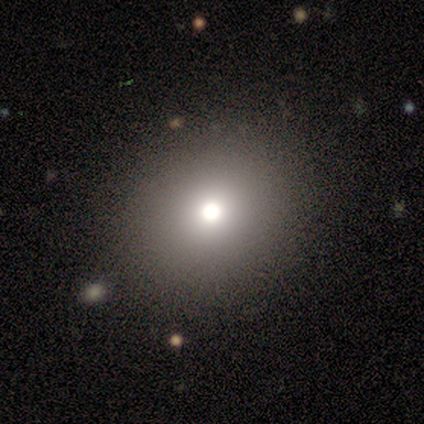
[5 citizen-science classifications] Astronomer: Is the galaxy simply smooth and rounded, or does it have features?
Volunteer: smooth — 60%.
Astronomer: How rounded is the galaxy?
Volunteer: round — 67%.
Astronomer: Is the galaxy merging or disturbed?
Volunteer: none — 100%.